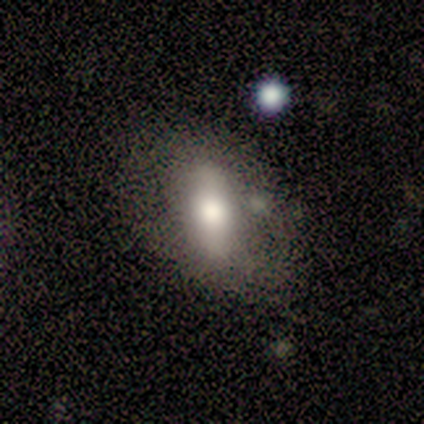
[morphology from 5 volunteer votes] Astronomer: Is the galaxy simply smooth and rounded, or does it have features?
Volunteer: smooth — 100%.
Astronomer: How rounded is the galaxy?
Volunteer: in between — 100%.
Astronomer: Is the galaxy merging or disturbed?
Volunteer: none — 60%.